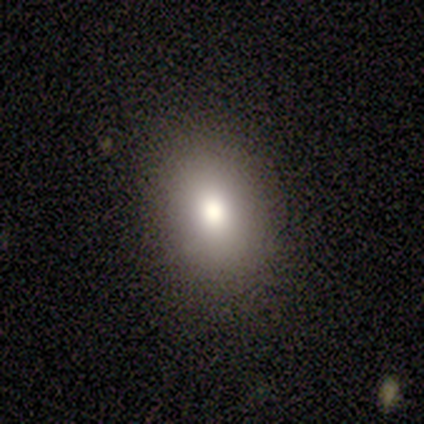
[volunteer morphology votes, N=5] Smooth or featured: smooth — 80% (star or artifact — 20%)
How rounded: round — 50% (tied with in between — 50%)
Merging: none — 100%